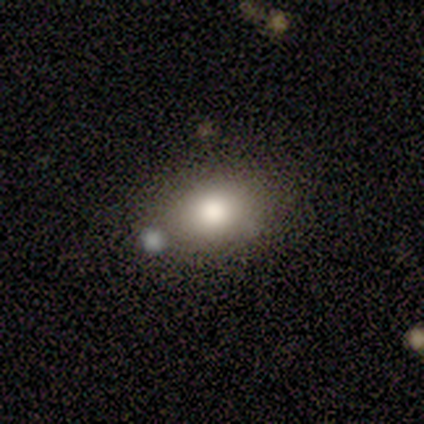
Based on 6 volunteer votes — Smooth or featured? smooth (83%)
How rounded? in between (100%)
Merging? none (80%)